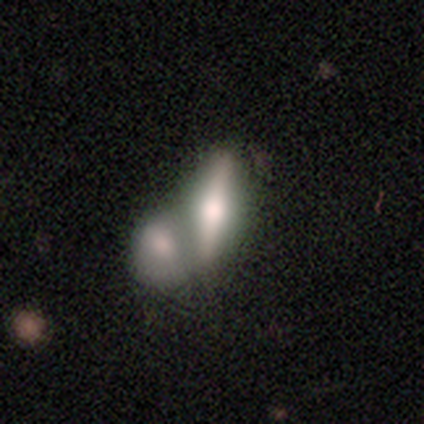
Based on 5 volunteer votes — Smooth or featured? smooth (60%)
How rounded? cigar-shaped (67%)
Merging? merger (60%)